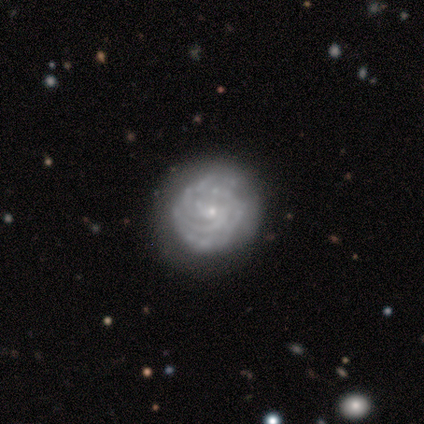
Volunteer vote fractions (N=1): Smooth or featured: smooth — 100%
How rounded: round — 100%
Merging: major disturbance — 100%